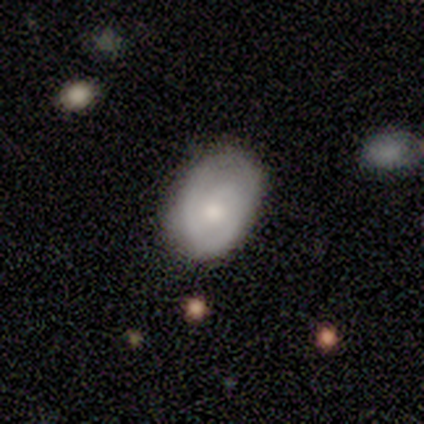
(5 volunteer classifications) Smooth or featured?
  - smooth: 40% * (tied)
  - star or artifact: 40% * (tied)
  - featured or disk: 20%
How rounded?
  - in between: 100% *
  - round: 0%
  - cigar-shaped: 0%
Merging?
  - none: 100% *
  - minor disturbance: 0%
  - major disturbance: 0%
  - merger: 0%